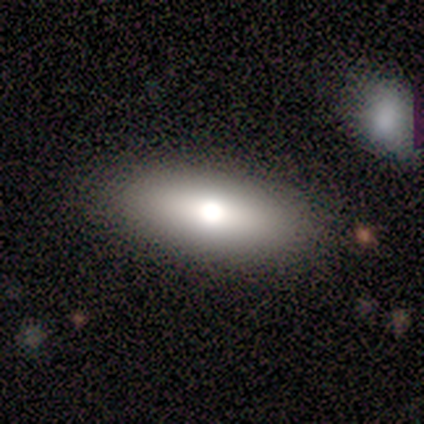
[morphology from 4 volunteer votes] Volunteers were most divided on "how rounded": in between: 67%, cigar-shaped: 33%, round: 0%. More confident: merging — none (100%); smooth or featured — smooth (75%).